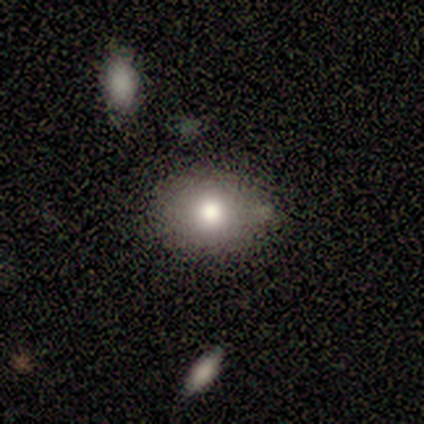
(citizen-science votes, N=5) Smooth or featured: smooth — 100%
How rounded: round — 80% (in between — 20%)
Merging: none — 80% (minor disturbance — 20%)